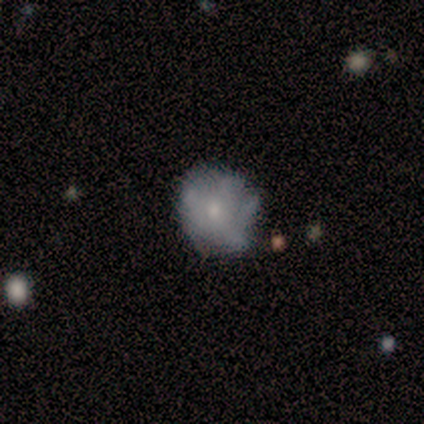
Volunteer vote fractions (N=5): smooth_or_featured: featured or disk (p=0.60) [alt: smooth p=0.40]
disk_edge_on: no (p=1.00)
bar: no (p=1.00)
has_spiral_arms: no (p=0.67) [alt: yes p=0.33]
bulge_size: moderate (p=0.67) [alt: small p=0.33]
merging: minor disturbance (p=0.80) [alt: none p=0.20]